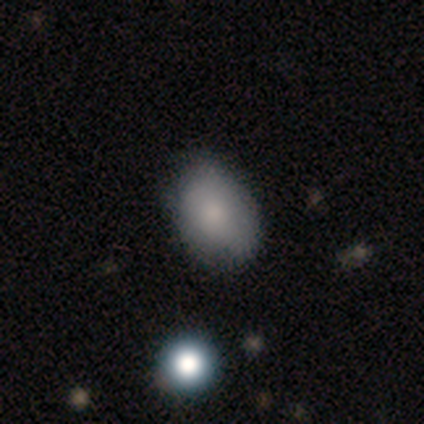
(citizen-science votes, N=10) smooth_or_featured: smooth (p=0.90) [alt: star or artifact p=0.10]
how_rounded: in between (p=0.67) [alt: round p=0.33]
merging: none (p=0.67) [alt: minor disturbance p=0.33]